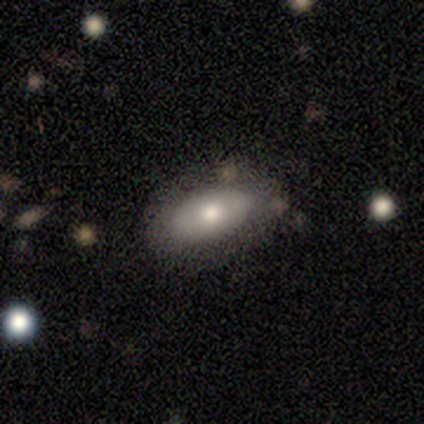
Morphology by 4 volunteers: Smooth or featured? smooth (100%)
How rounded? in between (100%)
Merging? none (50%)